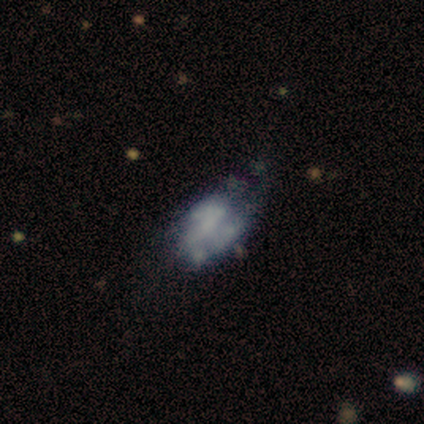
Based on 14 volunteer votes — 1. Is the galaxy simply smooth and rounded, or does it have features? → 71% featured or disk, 29% smooth, 0% star or artifact.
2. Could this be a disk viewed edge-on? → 100% no, 0% yes.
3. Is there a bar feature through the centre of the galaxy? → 80% no, 20% weak, 0% strong.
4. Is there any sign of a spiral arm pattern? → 70% no, 30% yes.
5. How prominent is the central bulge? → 60% none, 20% small, 10% dominant, 10% moderate, 0% large.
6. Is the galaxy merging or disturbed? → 43% minor disturbance, 29% major disturbance, 21% none, 7% merger.